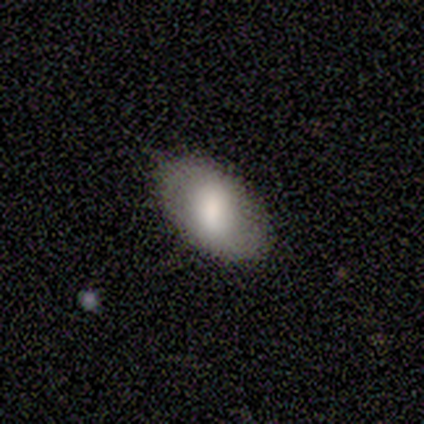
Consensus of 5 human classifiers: smooth_or_featured: smooth (p=0.40) [tied with: featured or disk p=0.40]
how_rounded: round (p=0.50) [tied with: in between p=0.50]
merging: none (p=1.00)